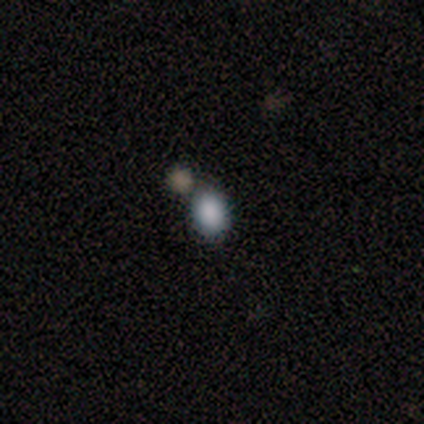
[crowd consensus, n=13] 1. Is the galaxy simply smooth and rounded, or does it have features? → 92% smooth, 8% star or artifact, 0% featured or disk.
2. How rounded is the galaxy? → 75% in between, 25% round, 0% cigar-shaped.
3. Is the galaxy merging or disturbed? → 75% none, 25% merger, 0% minor disturbance, 0% major disturbance.